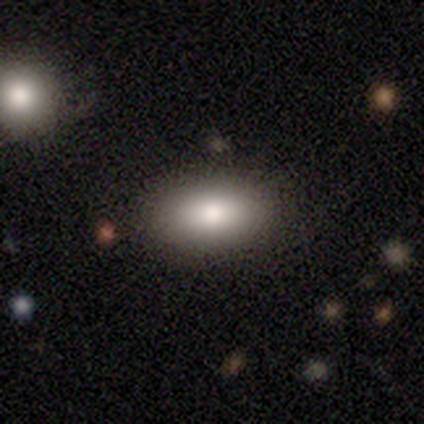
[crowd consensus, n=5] Q: Smooth or featured?
A: smooth (40%); tied with: star or artifact (40%)
Q: How rounded?
A: in between (100%)
Q: Merging?
A: none (100%)